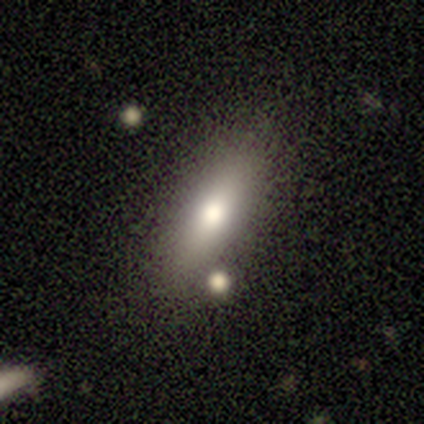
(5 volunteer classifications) Overall: smooth (60%; featured or disk 20%). How rounded: in between (67%; cigar-shaped 33%). Merging: none (75%).